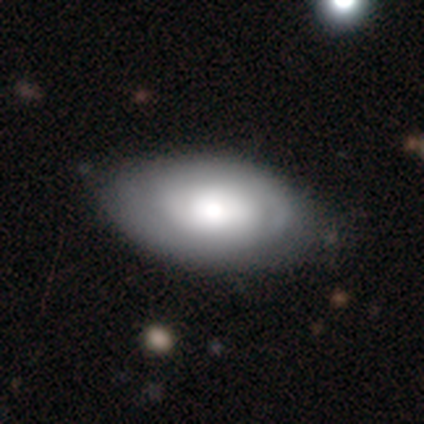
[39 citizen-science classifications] Volunteers were most divided on "smooth or featured": smooth: 64%, featured or disk: 36%, star or artifact: 0%. More confident: how rounded — in between (88%); merging — none (85%).